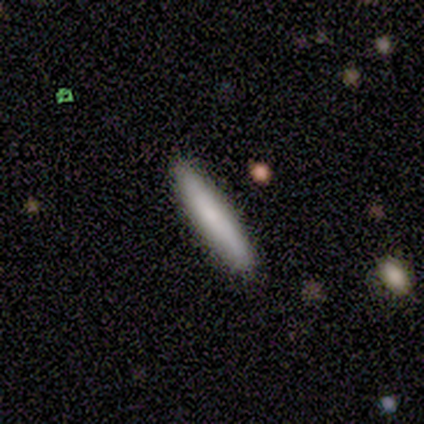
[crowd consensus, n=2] smooth_or_featured: smooth (p=1.00)
how_rounded: cigar-shaped (p=1.00)
merging: none (p=1.00)